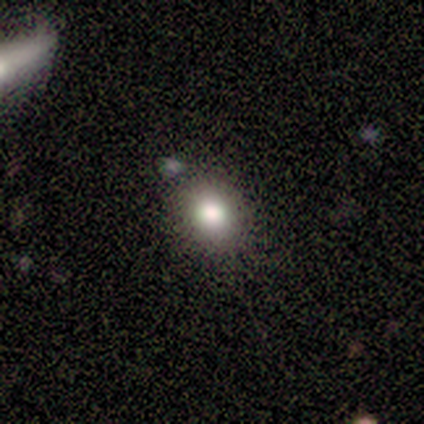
smooth-or-featured: smooth: 60% | featured or disk: 20% | star or artifact: 20%
  how-rounded: round: 100% | in between: 0% | cigar-shaped: 0%
  merging: none: 75% | merger: 25% | minor disturbance: 0% | major disturbance: 0%